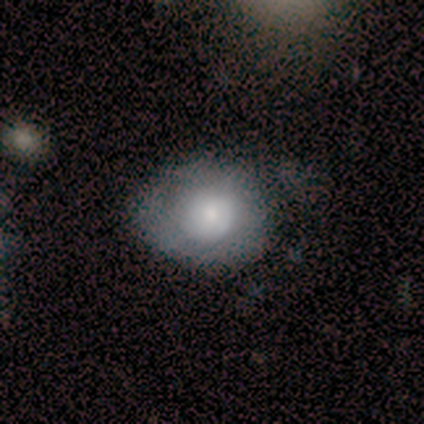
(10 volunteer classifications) A smooth galaxy with no disk features (60%) that is round (50%, tied with in between).

Vote fractions:
- Smooth or featured? smooth: 60% / featured or disk: 40% / star or artifact: 0%
- How rounded? round: 50% (tied) / in between: 50% (tied) / cigar-shaped: 0%
- Merging? none: 60% / minor disturbance: 40% / major disturbance: 0% / merger: 0%